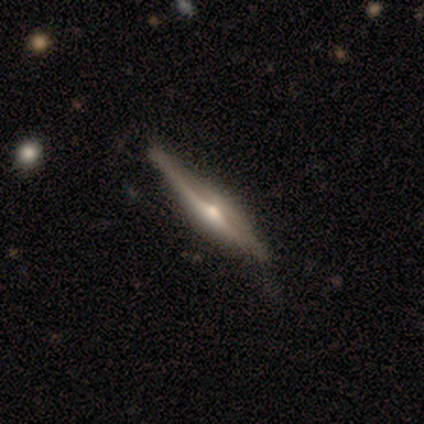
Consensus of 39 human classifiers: Morphology: type=featured or disk (82%); edge-on=yes (100%); edge-on bulge=rounded (81%); merging=none (38%).